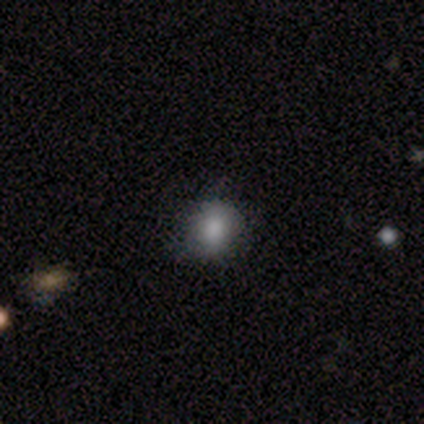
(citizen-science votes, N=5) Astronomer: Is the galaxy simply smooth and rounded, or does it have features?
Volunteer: smooth — 80%.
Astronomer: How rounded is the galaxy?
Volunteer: round — 75%.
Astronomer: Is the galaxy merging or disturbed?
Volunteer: none — 100%.